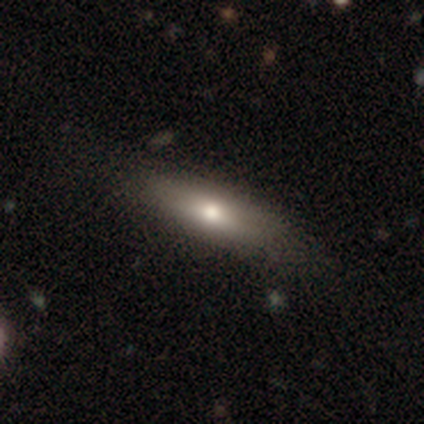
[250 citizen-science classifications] Smooth or featured?
  - smooth: 65% *
  - featured or disk: 26%
  - star or artifact: 9%
How rounded?
  - cigar-shaped: 62% *
  - in between: 34%
  - round: 4%
Merging?
  - none: 78% *
  - minor disturbance: 19%
  - major disturbance: 1%
  - merger: 1%